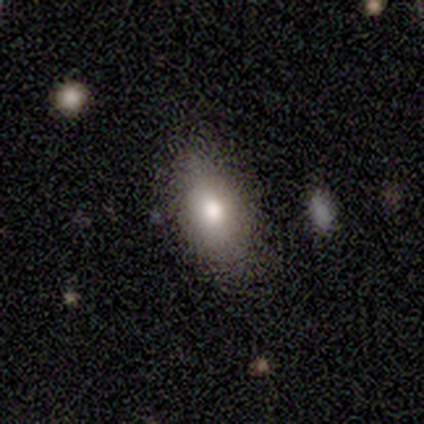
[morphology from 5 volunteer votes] A smooth galaxy with no disk features (100%) that is in between round and cigar-shaped (80%). Merging: none (100%).